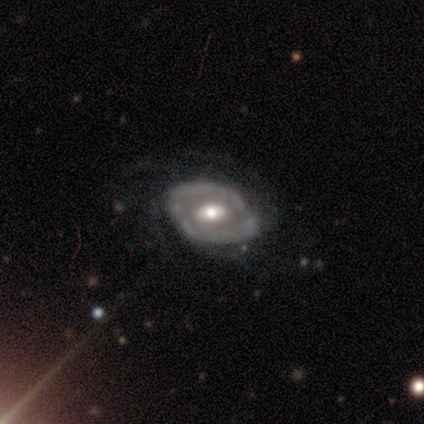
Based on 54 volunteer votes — Q: Smooth or featured?
A: featured or disk (80%); runner-up: smooth (11%)
Q: Edge-on disk?
A: no (93%); runner-up: yes (7%)
Q: Bar?
A: no (55%); runner-up: weak (35%)
Q: Spiral arms?
A: yes (65%); runner-up: no (35%)
Q: Spiral winding?
A: medium (54%); runner-up: tight (35%)
Q: Spiral arm count?
A: can't tell (46%); runner-up: 3 (15%)
Q: Bulge size?
A: moderate (78%); runner-up: large (12%)
Q: Merging?
A: none (63%); runner-up: minor disturbance (18%)